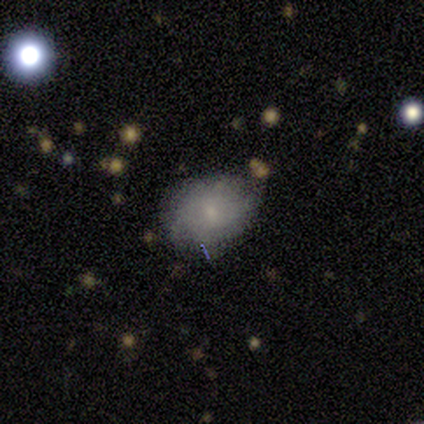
Smooth or featured?
  - smooth: 72% *
  - featured or disk: 21%
  - star or artifact: 8%
How rounded?
  - in between: 71% *
  - round: 29%
  - cigar-shaped: 0%
Merging?
  - none: 78% *
  - minor disturbance: 22%
  - major disturbance: 0%
  - merger: 0%